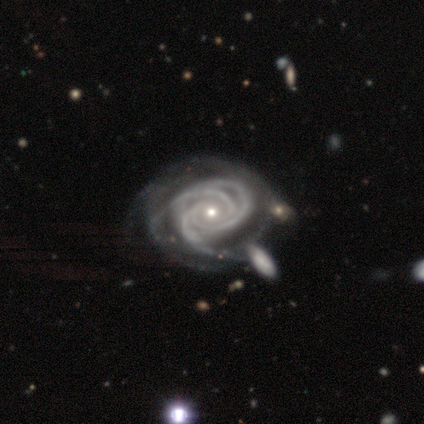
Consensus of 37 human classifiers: A featured or disk galaxy (97%) with no bar (71%), 3 (57%) tight (91%) spiral arms (100%) and a small central bulge (77%).

Vote fractions:
- Smooth or featured? featured or disk: 97% / smooth: 3% / star or artifact: 0%
- Edge-on disk? no: 97% / yes: 3%
- Bar? no: 71% / weak: 20% / strong: 9%
- Spiral arms? yes: 100% / no: 0%
- Spiral winding? tight: 91% / medium: 9% / loose: 0%
- Spiral arm count? 3: 57% / 4: 14% / can't tell: 14% / more than 4: 9% / 2: 6% / 1: 0%
- Bulge size? small: 77% / moderate: 20% / large: 3% / dominant: 0% / none: 0%
- Merging? none: 24% / minor disturbance: 16% / major disturbance: 16% / merger: 16%